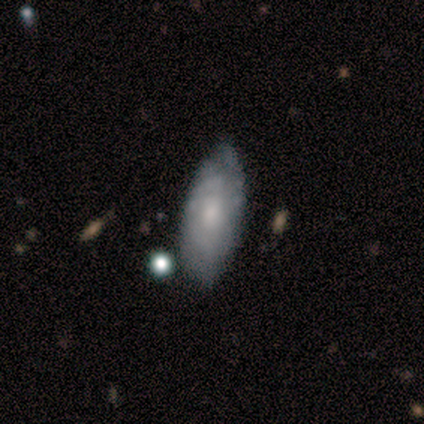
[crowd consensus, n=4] Smooth or featured?
  - smooth: 50% * (tied)
  - featured or disk: 50% * (tied)
  - star or artifact: 0%
How rounded?
  - in between: 100% *
  - round: 0%
  - cigar-shaped: 0%
Merging?
  - none: 50% *
  - minor disturbance: 25%
  - major disturbance: 25%
  - merger: 0%